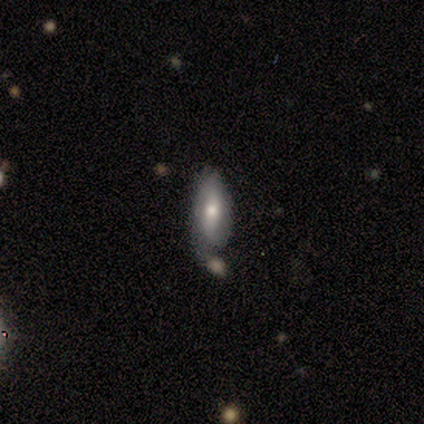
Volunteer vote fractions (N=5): A featured or disk galaxy (80%) with no bar (50%), no spiral arms (75%) and a moderate central bulge (75%).

Vote fractions:
- Smooth or featured? featured or disk: 80% / smooth: 20% / star or artifact: 0%
- Edge-on disk? no: 100% / yes: 0%
- Bar? no: 50% / strong: 25% / weak: 25%
- Spiral arms? no: 75% / yes: 25%
- Bulge size? moderate: 75% / small: 25% / dominant: 0% / large: 0% / none: 0%
- Merging? none: 40% (tied) / minor disturbance: 40% (tied) / merger: 20% / major disturbance: 0%